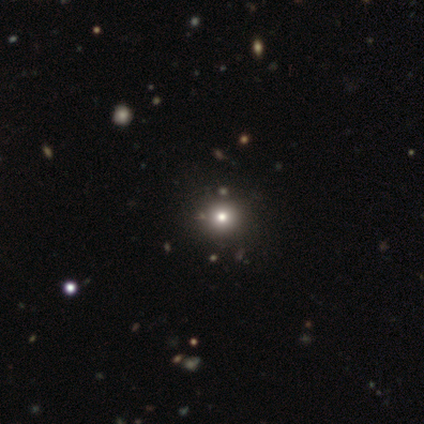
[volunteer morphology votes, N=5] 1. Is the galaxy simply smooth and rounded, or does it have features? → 80% smooth, 20% star or artifact, 0% featured or disk.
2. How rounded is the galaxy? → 100% round, 0% in between, 0% cigar-shaped.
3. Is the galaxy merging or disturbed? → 100% none, 0% minor disturbance, 0% major disturbance, 0% merger.